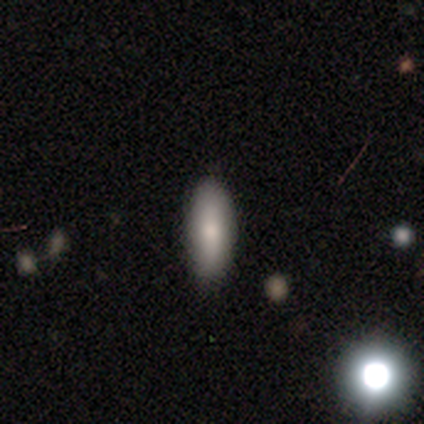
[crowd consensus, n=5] Smooth or featured: smooth — 100%
How rounded: in between — 80% (cigar-shaped — 20%)
Merging: none — 80% (minor disturbance — 20%)